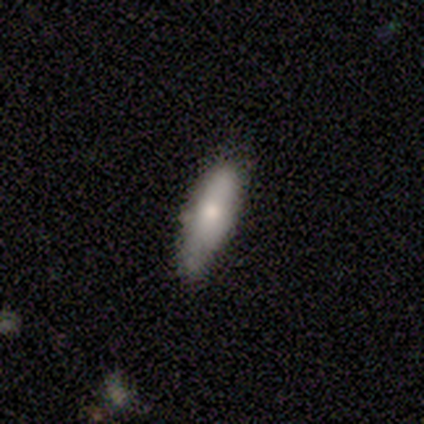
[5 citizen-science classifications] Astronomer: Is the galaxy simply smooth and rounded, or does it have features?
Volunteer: smooth — 80%.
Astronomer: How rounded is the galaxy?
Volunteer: cigar-shaped — 100%.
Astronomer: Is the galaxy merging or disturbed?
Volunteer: none — 80%.